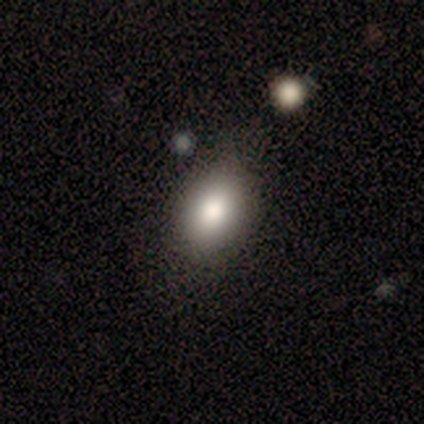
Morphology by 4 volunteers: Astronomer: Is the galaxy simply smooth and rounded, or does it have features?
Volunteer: smooth — 75%.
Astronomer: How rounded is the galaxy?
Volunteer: in between — 100%.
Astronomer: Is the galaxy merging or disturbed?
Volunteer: none — 75%.